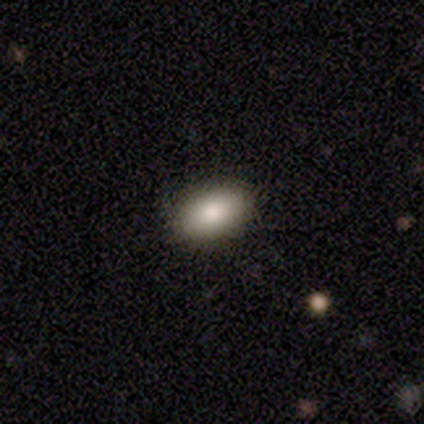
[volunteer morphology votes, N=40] Smooth or featured? 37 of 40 (92%) said smooth. How rounded? 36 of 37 (97%) said in between. Merging? 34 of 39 (87%) said none.